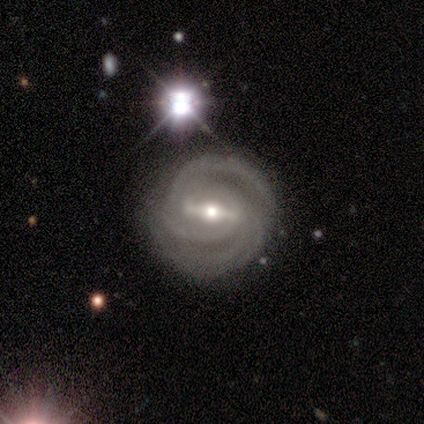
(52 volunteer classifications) Smooth or featured?
  - featured or disk: 96% *
  - smooth: 4%
  - star or artifact: 0%
Edge-on disk?
  - no: 98% *
  - yes: 2%
Bar?
  - strong: 78% *
  - weak: 14%
  - no: 8%
Spiral arms?
  - yes: 94% *
  - no: 6%
Spiral winding?
  - tight: 74% *
  - medium: 17%
  - loose: 9%
Spiral arm count?
  - 2: 33% *
  - 4: 30%
  - 3: 22%
  - can't tell: 15%
  - 1: 0%
  - more than 4: 0%
Bulge size?
  - moderate: 57% *
  - small: 37%
  - large: 4%
  - dominant: 2%
  - none: 0%
Merging?
  - none: 81% *
  - minor disturbance: 10%
  - major disturbance: 8%
  - merger: 2%